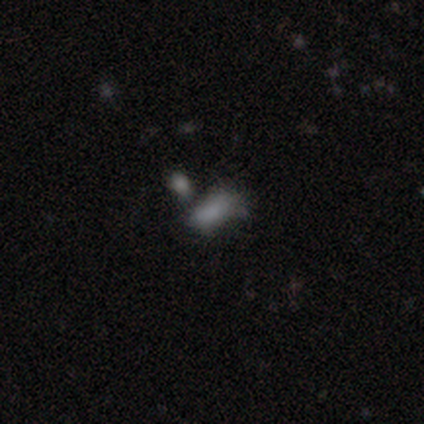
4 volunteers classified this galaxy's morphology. Overall: smooth (75%). How rounded: in between (100%). Merging: merger (75%).